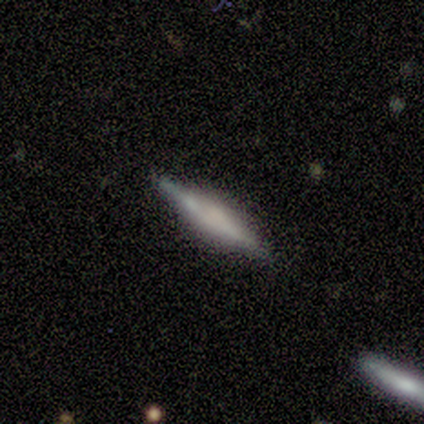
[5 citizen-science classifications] Overall: smooth (60%; featured or disk 20%). How rounded: cigar-shaped (100%). Merging: none (100%).